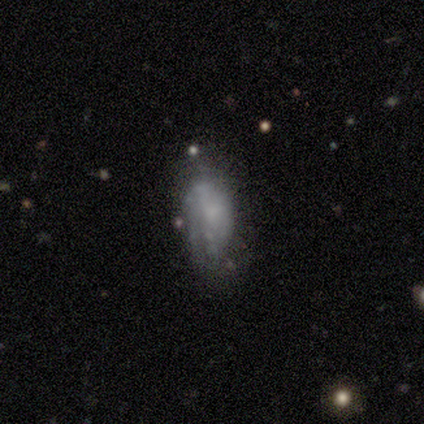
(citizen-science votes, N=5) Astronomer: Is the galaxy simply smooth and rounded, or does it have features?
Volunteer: smooth — 60% (runner-up: featured or disk, 40%).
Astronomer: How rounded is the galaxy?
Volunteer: in between — 100%.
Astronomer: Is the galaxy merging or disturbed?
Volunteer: none — 40% (runner-up: minor disturbance, 20%).